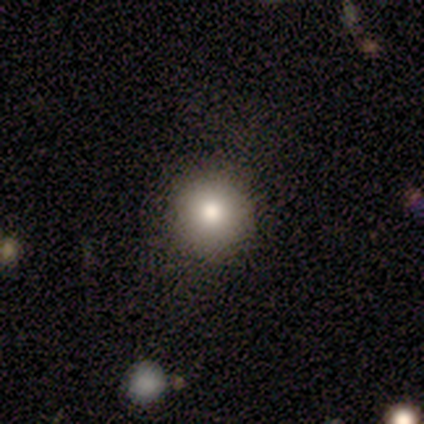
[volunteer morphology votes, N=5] Smooth or featured: smooth — 80% (star or artifact — 20%)
How rounded: round — 100%
Merging: none — 50% (tied with minor disturbance — 50%)